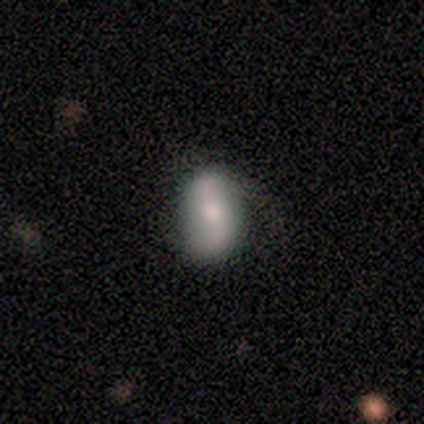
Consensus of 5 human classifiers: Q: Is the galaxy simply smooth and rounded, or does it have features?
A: smooth — 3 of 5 (60%).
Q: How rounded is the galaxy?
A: in between — 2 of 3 (67%).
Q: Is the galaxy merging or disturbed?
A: none — 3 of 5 (60%).